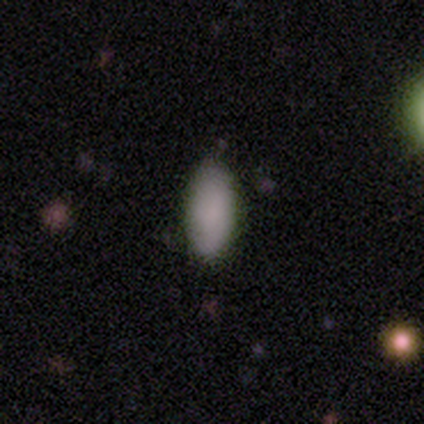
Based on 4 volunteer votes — Morphology: type=smooth (100%); roundness=in between (100%); merging=none (100%).